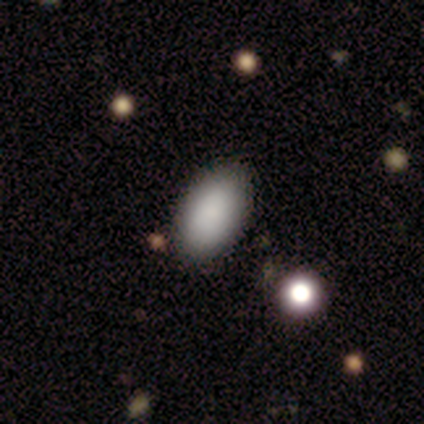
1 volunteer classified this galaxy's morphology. smooth 100%, featured or disk 0%, star or artifact 0%. Down the decision tree: how rounded — in between (100%); merging — minor disturbance (100%).